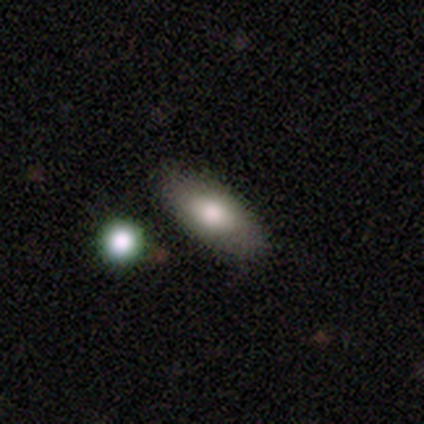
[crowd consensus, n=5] smooth 100%, featured or disk 0%, star or artifact 0%. Down the decision tree: how rounded — in between (100%); merging — none (80%).